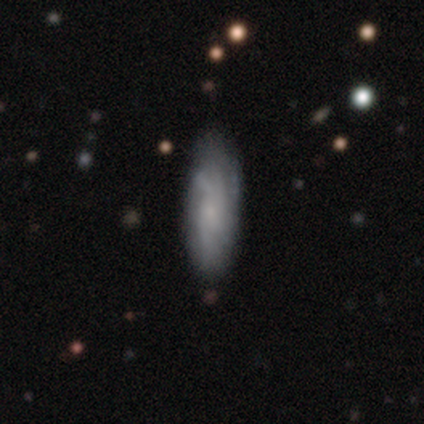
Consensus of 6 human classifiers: A smooth galaxy with no disk features (67%) that is in between round and cigar-shaped (75%). Merging: none (67%).